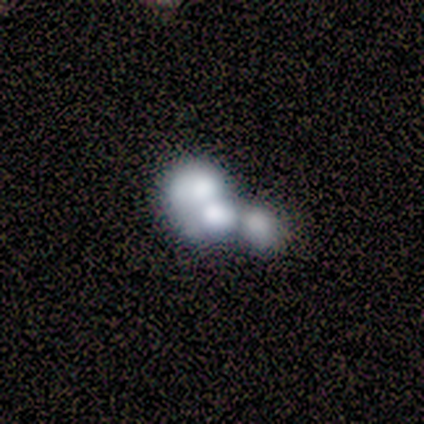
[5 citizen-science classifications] This is likely a featured or disk galaxy (60%). It is clearly not viewed edge-on (100%). Bar: clearly no (100%). Spiral arm pattern: likely no (67%). Central bulge: marginally large (33%, tied with moderate and none). Merging: clearly merger (80%).